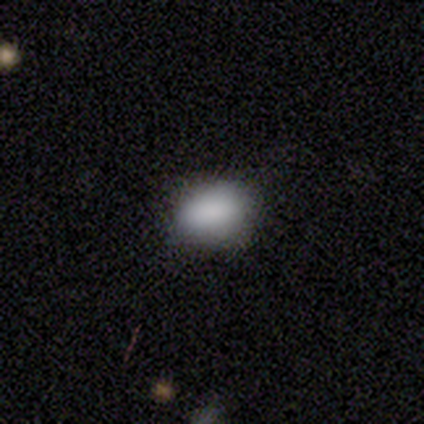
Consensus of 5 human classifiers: Smooth or featured? smooth (100%)
How rounded? in between (100%)
Merging? none (100%)